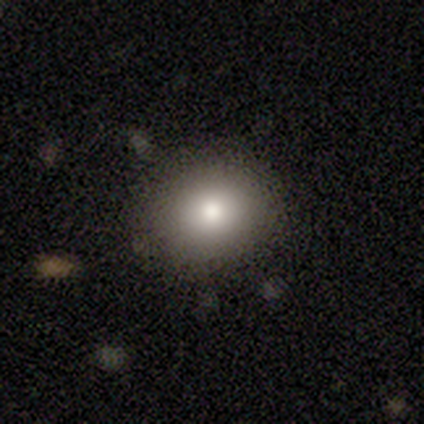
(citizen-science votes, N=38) Overall: smooth (84%). How rounded: round (81%). Merging: none (91%).